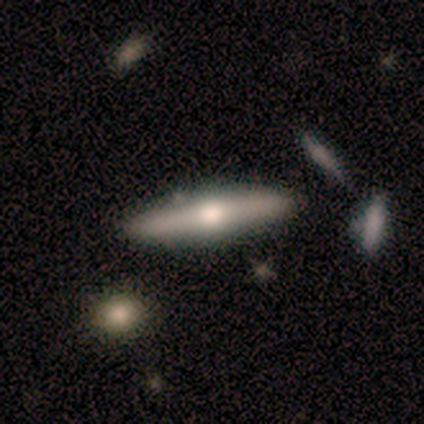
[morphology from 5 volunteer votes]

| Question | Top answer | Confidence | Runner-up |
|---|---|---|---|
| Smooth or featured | featured or disk | 100% | — |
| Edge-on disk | yes | 80% | no (20%) |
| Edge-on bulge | rounded | 100% | — |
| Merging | none | 60% | minor disturbance (40%) |